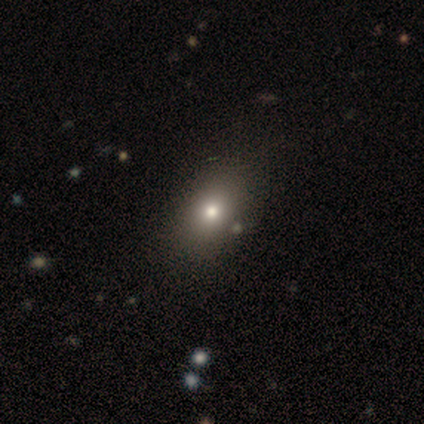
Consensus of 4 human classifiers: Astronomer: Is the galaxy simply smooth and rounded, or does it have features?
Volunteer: smooth — 50%, tied with featured or disk at 50%.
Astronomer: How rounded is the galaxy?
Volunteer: in between — 100%.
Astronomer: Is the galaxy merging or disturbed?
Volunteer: none — 100%.